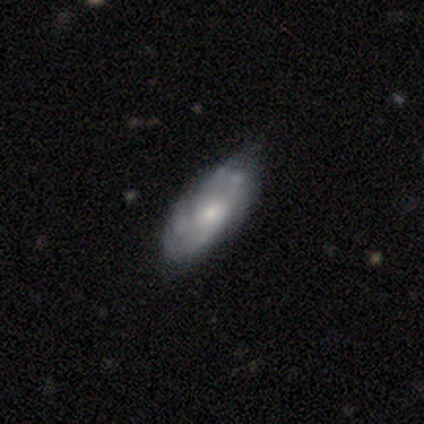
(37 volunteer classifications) A featured or disk galaxy (65%) with no bar (79%), no spiral arms (53%) and a moderate central bulge (68%). Merging: none (47%).